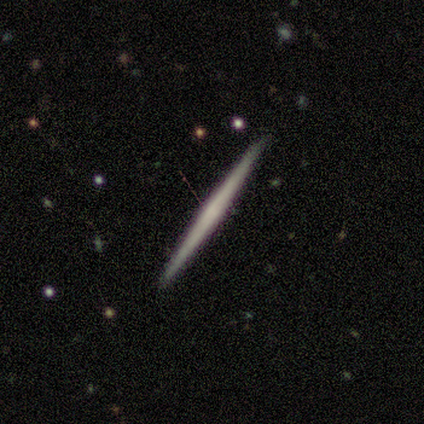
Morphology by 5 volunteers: smooth_or_featured: featured or disk (p=0.60) [alt: smooth p=0.40]
disk_edge_on: yes (p=1.00)
edge_on_bulge: none (p=0.67) [alt: rounded p=0.33]
merging: none (p=1.00)